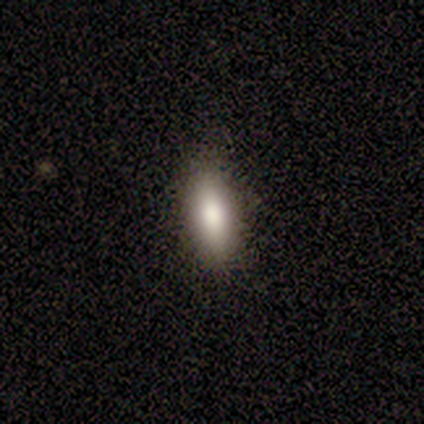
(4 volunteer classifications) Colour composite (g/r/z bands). It shows a smooth galaxy with no disk features (75%) that is in between round and cigar-shaped (67%). Merging: none (67%).